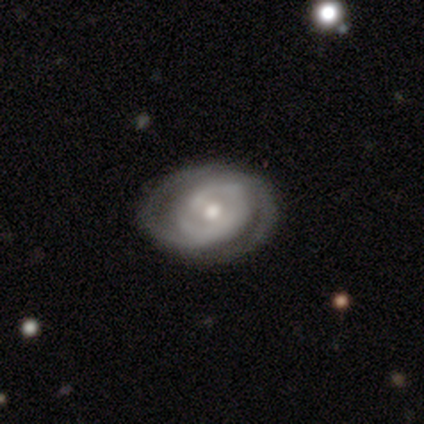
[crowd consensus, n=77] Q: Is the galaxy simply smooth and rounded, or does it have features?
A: featured or disk — 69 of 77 (90%).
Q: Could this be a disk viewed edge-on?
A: no — 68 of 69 (99%).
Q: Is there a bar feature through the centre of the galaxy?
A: no — 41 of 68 (60%).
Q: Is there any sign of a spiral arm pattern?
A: yes — 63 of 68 (93%).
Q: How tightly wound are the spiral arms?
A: tight — 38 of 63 (60%).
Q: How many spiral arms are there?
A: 2 — 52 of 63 (83%).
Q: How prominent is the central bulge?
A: moderate — 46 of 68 (68%).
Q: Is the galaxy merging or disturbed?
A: none — 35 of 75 (47%).